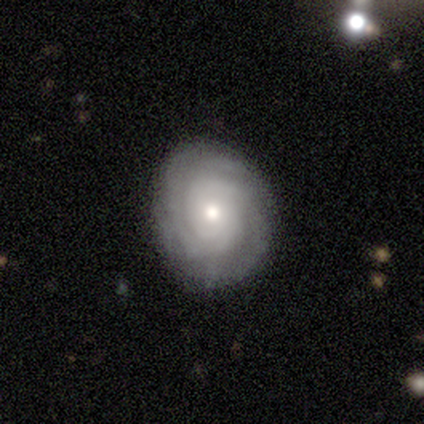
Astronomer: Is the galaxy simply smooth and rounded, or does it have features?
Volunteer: featured or disk — 60%.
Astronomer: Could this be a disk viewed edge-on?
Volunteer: no — 100%.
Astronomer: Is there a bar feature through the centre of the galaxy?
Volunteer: no — 100%.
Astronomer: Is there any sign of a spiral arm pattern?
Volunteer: yes — 100%.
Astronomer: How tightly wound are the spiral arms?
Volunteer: tight — 67%.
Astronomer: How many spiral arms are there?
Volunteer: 2 — 67%.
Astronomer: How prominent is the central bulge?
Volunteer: large — 67%.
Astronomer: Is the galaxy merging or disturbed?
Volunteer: none — 50%, tied with minor disturbance at 50%.